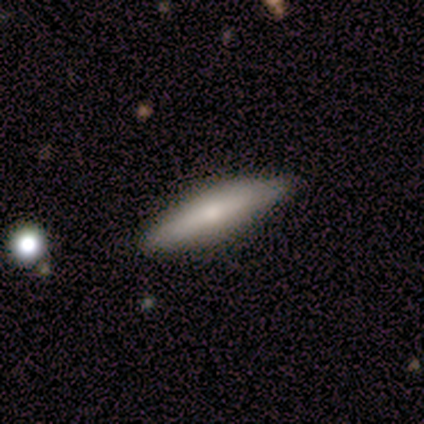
A smooth galaxy with no disk features (75%) that is cigar-shaped (67%). Merging: none (67%).